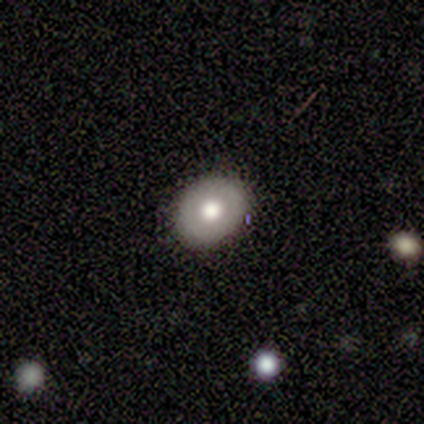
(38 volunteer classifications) Volunteers were most divided on "smooth or featured": smooth: 53%, featured or disk: 39%, star or artifact: 8%. More confident: merging — none (97%); how rounded — in between (65%).